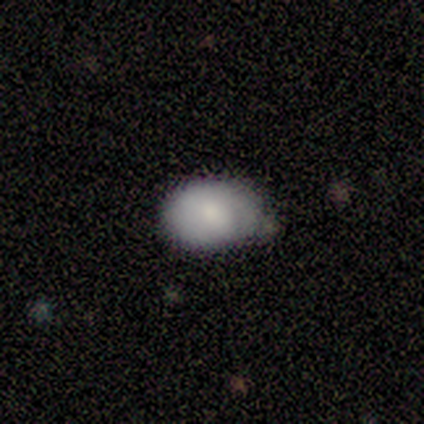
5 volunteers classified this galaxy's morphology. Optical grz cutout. It shows a smooth galaxy with no disk features (80%) that is in between round and cigar-shaped (100%). Merging: none (60%).